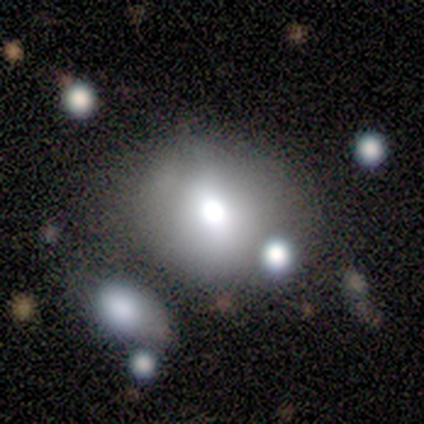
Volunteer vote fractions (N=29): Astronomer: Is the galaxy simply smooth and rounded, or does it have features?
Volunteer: smooth — 83%.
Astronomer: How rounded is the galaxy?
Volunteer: round — 75%.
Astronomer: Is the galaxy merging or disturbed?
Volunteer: merger — 32% (runner-up: minor disturbance, 12%).